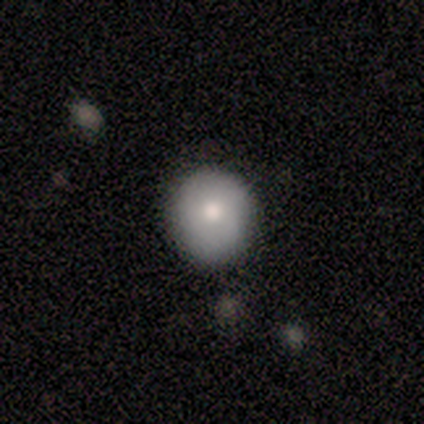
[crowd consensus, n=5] Overall: smooth (80%). How rounded: round (75%). Merging: none (80%).